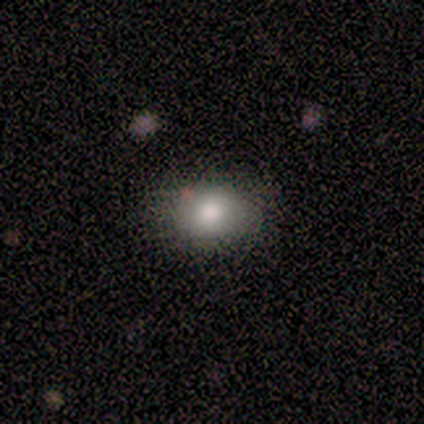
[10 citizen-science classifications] Smooth or featured?
  - smooth: 80% *
  - featured or disk: 20%
  - star or artifact: 0%
How rounded?
  - in between: 62% *
  - round: 38%
  - cigar-shaped: 0%
Merging?
  - none: 80% *
  - minor disturbance: 20%
  - major disturbance: 0%
  - merger: 0%